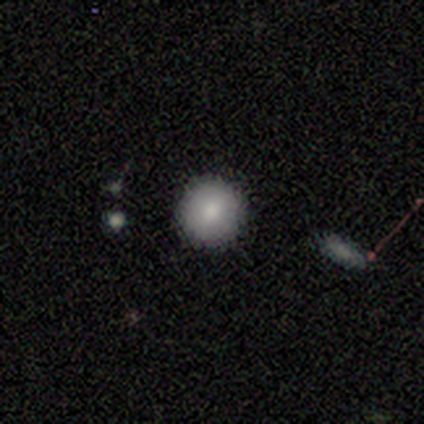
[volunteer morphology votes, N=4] Smooth or featured? 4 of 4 (100%) said smooth. How rounded? 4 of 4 (100%) said round. Merging? 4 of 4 (100%) said none.